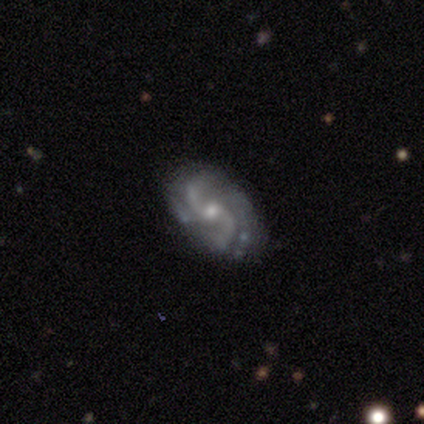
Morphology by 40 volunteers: Volunteers were most divided on "bar": weak: 47%, no: 44%, strong: 9%. More confident: spiral arms — yes (100%); edge-on disk — no (97%); smooth or featured — featured or disk (88%); spiral arm count — 2 (76%); merging — none (74%); bulge size — moderate (53%); spiral winding — loose (53%).